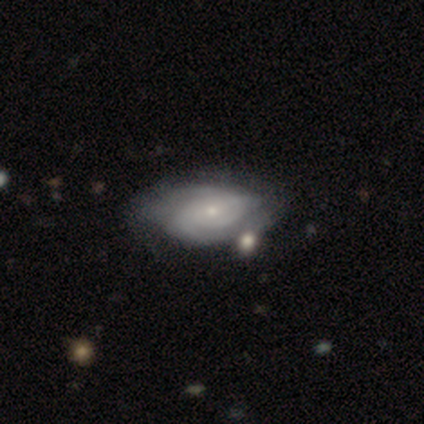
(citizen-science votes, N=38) A featured or disk galaxy (79%) with no bar (70%), 2 (52%) tight (66%) spiral arms (97%) and a small central bulge (67%).

Vote fractions:
- Smooth or featured? featured or disk: 79% / smooth: 16% / star or artifact: 5%
- Edge-on disk? no: 100% / yes: 0%
- Bar? no: 70% / weak: 30% / strong: 0%
- Spiral arms? yes: 97% / no: 3%
- Spiral winding? tight: 66% / medium: 21% / loose: 14%
- Spiral arm count? 2: 52% / can't tell: 28% / 3: 14% / 1: 7% / 4: 0% / more than 4: 0%
- Bulge size? small: 67% / moderate: 23% / dominant: 3% / large: 3% / none: 3%
- Merging? none: 47% / minor disturbance: 17% / major disturbance: 14% / merger: 11%